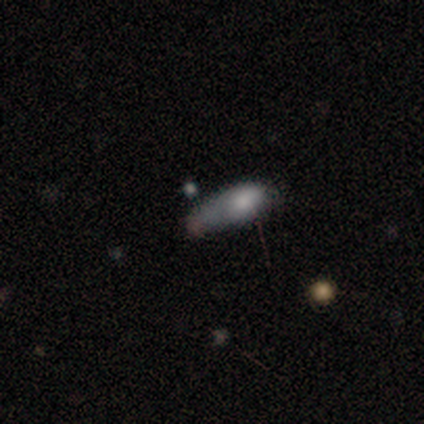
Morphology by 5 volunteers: smooth 60%, featured or disk 40%, star or artifact 0%. Down the decision tree: how rounded — in between (100%); merging — major disturbance (60%).